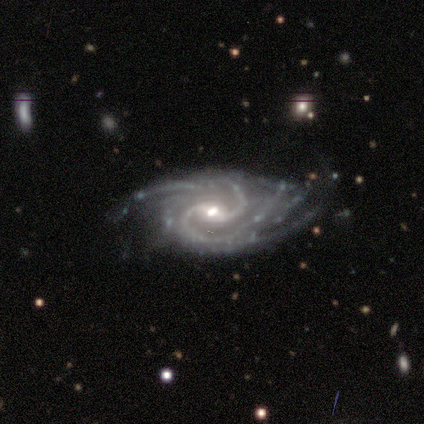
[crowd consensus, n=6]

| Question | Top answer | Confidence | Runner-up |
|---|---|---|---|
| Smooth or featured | featured or disk | 100% | — |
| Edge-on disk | no | 100% | — |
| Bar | weak | 83% | strong (17%) |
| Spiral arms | yes | 100% | — |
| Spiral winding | tight | 67% | medium (17%) |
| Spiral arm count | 2 | 50% | can't tell (33%) |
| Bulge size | moderate | 83% | small (17%) |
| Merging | none | 50% | tied: minor disturbance (50%) |